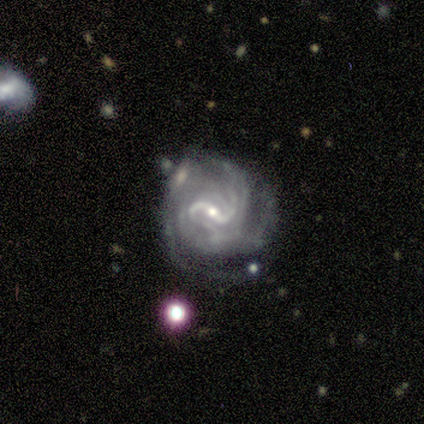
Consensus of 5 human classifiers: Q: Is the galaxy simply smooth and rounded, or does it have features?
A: featured or disk — 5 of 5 (100%).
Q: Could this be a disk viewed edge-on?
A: no — 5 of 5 (100%).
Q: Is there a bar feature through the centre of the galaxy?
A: strong — 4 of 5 (80%).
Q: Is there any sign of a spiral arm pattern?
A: yes — 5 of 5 (100%).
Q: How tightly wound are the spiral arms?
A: tight — 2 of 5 (40%, tied with medium).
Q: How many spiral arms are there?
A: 2 — 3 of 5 (60%).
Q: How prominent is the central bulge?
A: small — 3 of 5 (60%).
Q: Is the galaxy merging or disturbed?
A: none — 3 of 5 (60%).